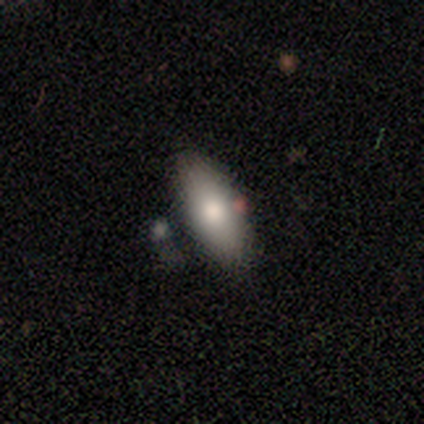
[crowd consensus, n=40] This appears to be a smooth galaxy with no disk features (82%) that is in between round and cigar-shaped (85%). Merging: none (74%).